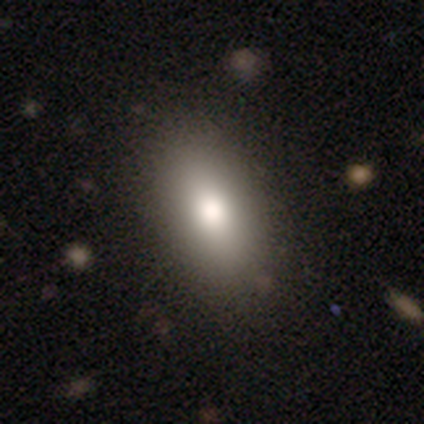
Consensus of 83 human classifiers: smooth-or-featured: smooth: 83% | featured or disk: 10% | star or artifact: 7%
  how-rounded: in between: 94% | cigar-shaped: 6% | round: 0%
  merging: none: 92% | minor disturbance: 8% | major disturbance: 0% | merger: 0%